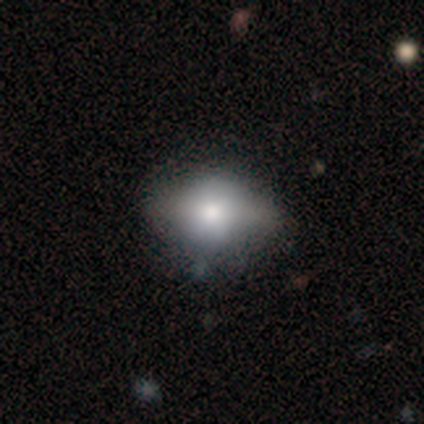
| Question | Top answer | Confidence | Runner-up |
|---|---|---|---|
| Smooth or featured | smooth | 59% | featured or disk (33%) |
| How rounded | in between | 65% | round (26%) |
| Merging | none | 61% | minor disturbance (31%) |